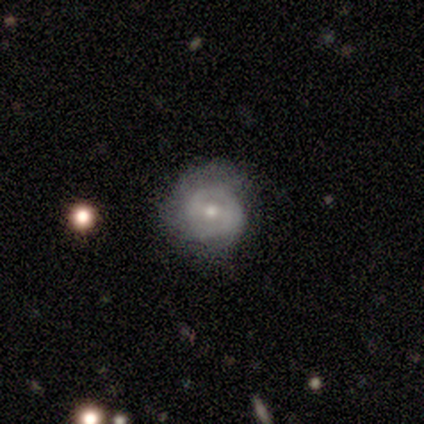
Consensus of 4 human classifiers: This is clearly a smooth galaxy (100%). How rounded: likely round (75%). Merging: likely none (75%).